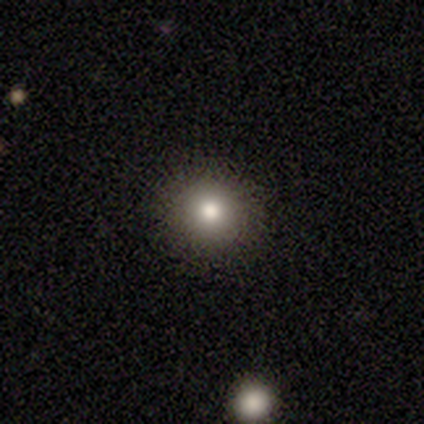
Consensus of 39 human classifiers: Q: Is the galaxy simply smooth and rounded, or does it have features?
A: smooth — 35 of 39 (90%).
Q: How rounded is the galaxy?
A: round — 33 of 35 (94%).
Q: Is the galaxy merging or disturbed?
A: none — 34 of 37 (92%).